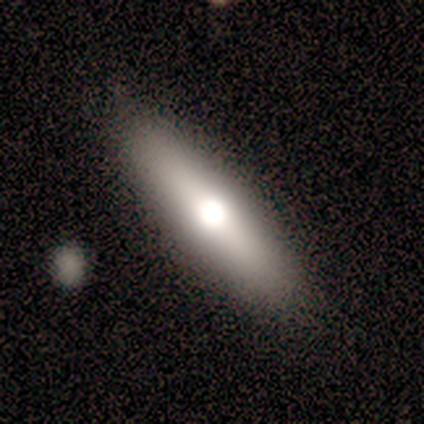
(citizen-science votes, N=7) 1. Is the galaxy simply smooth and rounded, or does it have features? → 71% smooth, 14% featured or disk, 14% star or artifact.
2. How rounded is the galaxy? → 60% cigar-shaped, 40% in between, 0% round.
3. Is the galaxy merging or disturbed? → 100% none, 0% minor disturbance, 0% major disturbance, 0% merger.